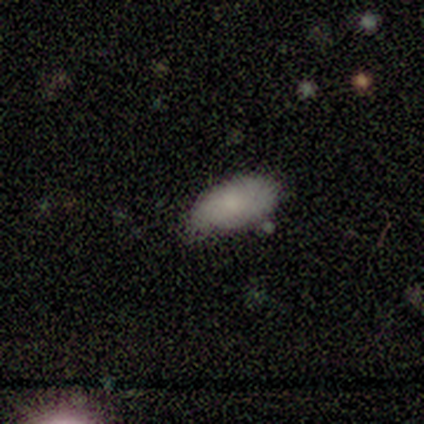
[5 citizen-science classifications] Q: Smooth or featured?
A: smooth (80%); runner-up: star or artifact (20%)
Q: How rounded?
A: in between (75%); runner-up: cigar-shaped (25%)
Q: Merging?
A: minor disturbance (50%); runner-up: none (25%)